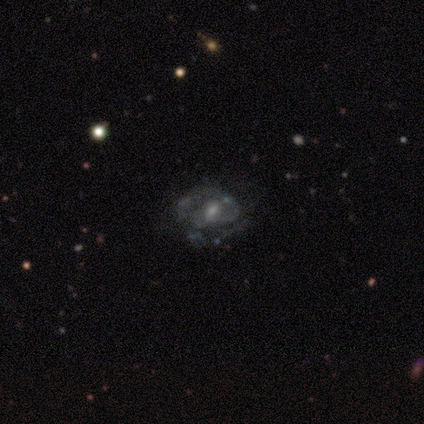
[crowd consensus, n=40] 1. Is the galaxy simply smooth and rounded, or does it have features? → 95% featured or disk, 2% smooth, 2% star or artifact.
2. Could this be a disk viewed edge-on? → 97% no, 3% yes.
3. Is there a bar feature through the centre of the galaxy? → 65% no, 32% weak, 3% strong.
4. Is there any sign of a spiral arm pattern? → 51% yes, 49% no.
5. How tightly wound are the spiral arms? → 47% medium, 42% tight, 11% loose.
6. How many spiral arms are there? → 42% 2 (tied), 42% can't tell (tied), 16% 1, 0% 3, 0% 4, 0% more than 4.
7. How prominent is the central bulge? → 46% small, 41% moderate, 14% none, 0% dominant, 0% large.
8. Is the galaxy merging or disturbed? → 26% none, 13% major disturbance, 10% merger, 8% minor disturbance.